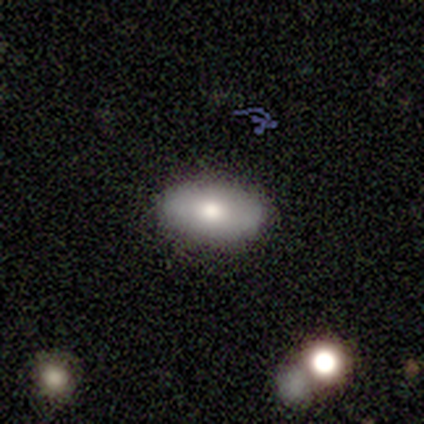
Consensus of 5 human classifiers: Smooth or featured?
  - smooth: 80% *
  - featured or disk: 20%
  - star or artifact: 0%
How rounded?
  - in between: 100% *
  - round: 0%
  - cigar-shaped: 0%
Merging?
  - none: 100% *
  - minor disturbance: 0%
  - major disturbance: 0%
  - merger: 0%